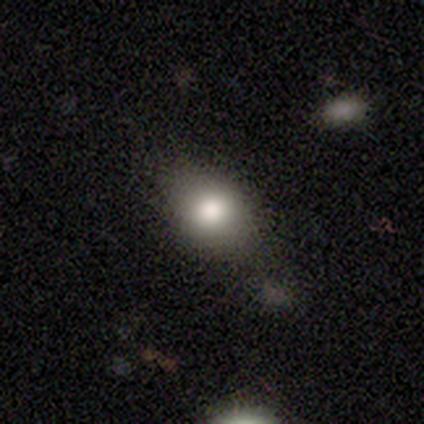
A smooth galaxy with no disk features (80%) that is in between round and cigar-shaped (100%). Merging: minor disturbance (50%).